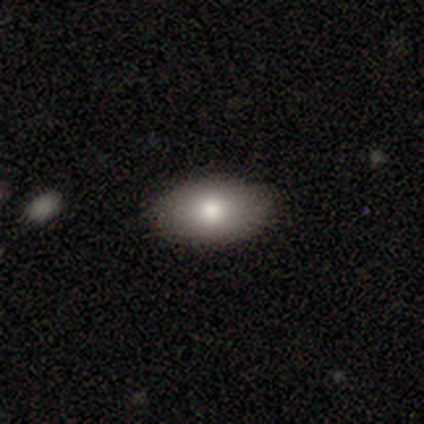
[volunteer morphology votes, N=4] Q: Smooth or featured?
A: smooth (100%)
Q: How rounded?
A: in between (100%)
Q: Merging?
A: none (100%)